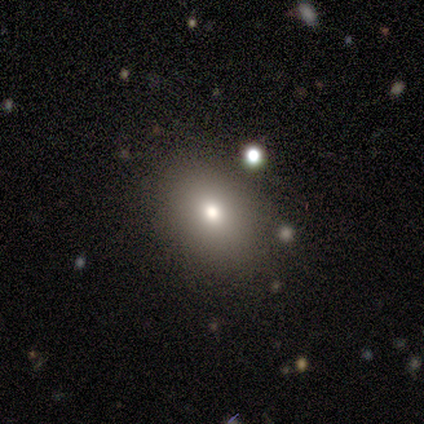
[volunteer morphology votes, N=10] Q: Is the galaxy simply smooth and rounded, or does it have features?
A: smooth — 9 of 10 (90%).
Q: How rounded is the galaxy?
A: in between — 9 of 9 (100%).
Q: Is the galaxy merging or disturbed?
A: none — 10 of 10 (100%).